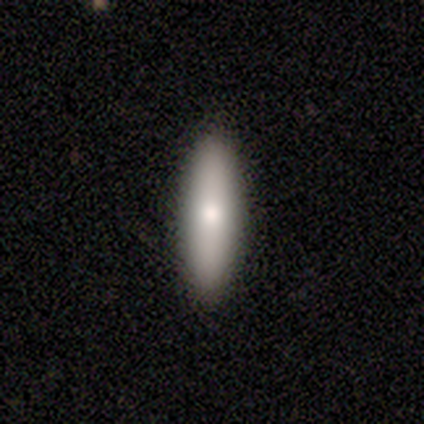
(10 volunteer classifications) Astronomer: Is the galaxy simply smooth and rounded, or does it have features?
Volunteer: smooth — 70%.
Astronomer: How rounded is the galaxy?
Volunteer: cigar-shaped — 57% (runner-up: in between, 43%).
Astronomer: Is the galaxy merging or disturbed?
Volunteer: none — 100%.